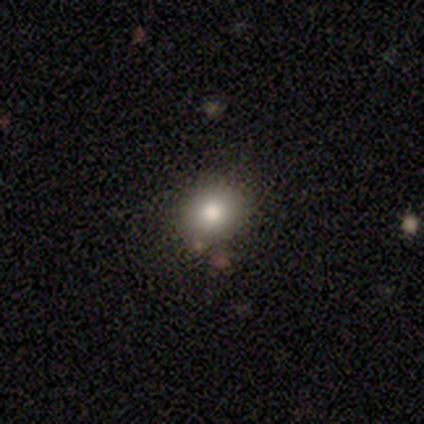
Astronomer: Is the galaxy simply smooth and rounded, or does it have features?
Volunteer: smooth — 84%.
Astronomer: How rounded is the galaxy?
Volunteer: round — 84%.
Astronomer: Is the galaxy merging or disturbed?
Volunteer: none — 86%.